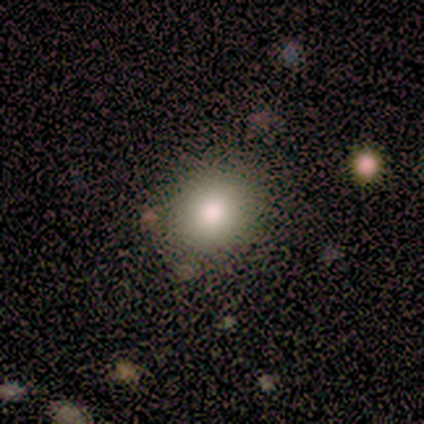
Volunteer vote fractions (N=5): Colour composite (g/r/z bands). It shows a smooth galaxy with no disk features (60%) that is round (100%). Merging: none (75%).